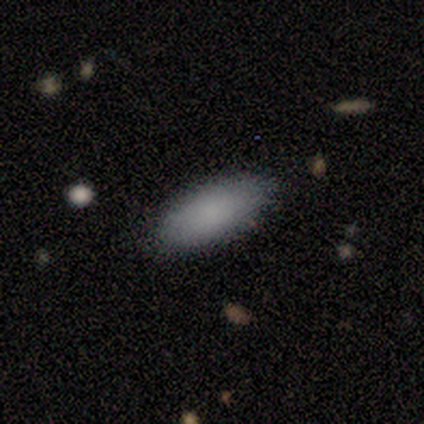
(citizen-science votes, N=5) Smooth or featured? 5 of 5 (100%) said smooth. How rounded? 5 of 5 (100%) said in between. Merging? 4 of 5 (80%) said none.